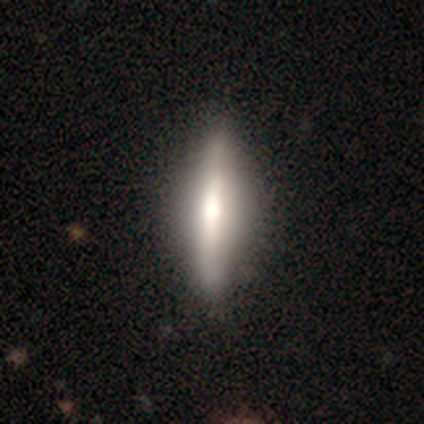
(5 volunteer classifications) Overall: featured or disk (100%). Edge-on disk: yes (100%). Edge-on bulge: rounded (80%). Merging: none (100%).